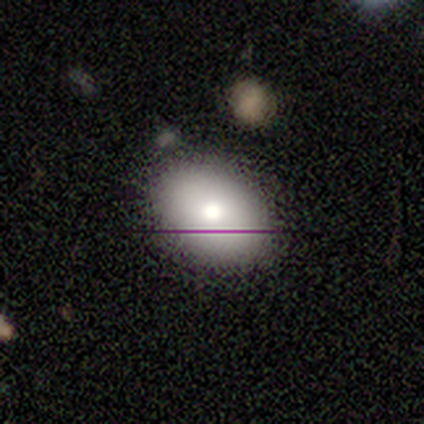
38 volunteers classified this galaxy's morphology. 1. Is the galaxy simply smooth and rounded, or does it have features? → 79% smooth, 13% featured or disk, 8% star or artifact.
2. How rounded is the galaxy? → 87% in between, 13% round, 0% cigar-shaped.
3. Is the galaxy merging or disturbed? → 69% none, 20% minor disturbance, 9% major disturbance, 3% merger.